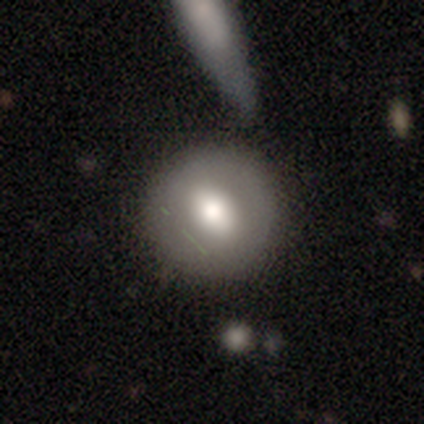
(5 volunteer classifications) smooth_or_featured: smooth (p=0.40) [tied with: featured or disk p=0.40]
how_rounded: round (p=1.00)
merging: none (p=1.00)